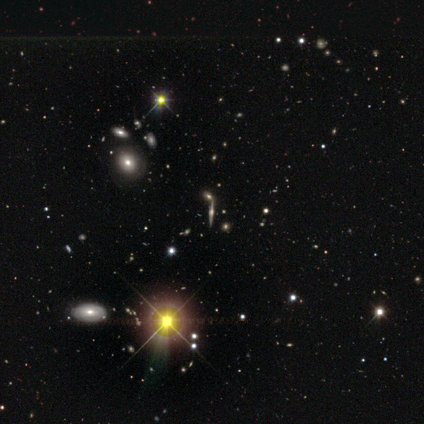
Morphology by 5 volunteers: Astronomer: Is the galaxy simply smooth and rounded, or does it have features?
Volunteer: featured or disk — 60% (runner-up: star or artifact, 40%).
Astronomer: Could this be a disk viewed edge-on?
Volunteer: yes — 100%.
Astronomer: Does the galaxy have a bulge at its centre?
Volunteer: rounded — 67%.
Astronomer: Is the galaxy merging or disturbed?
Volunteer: none — 67%.